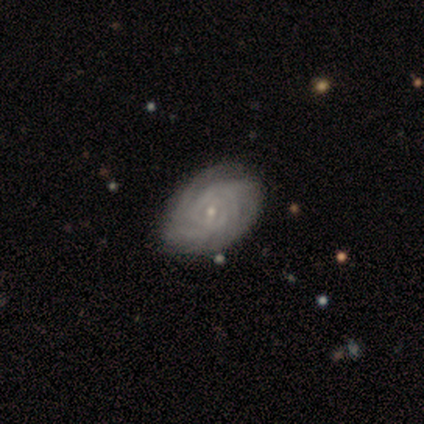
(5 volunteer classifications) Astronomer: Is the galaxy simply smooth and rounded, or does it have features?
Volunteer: featured or disk — 80%.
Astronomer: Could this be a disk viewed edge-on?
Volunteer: no — 100%.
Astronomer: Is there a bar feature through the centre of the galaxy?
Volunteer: weak — 50%, tied with no at 50%.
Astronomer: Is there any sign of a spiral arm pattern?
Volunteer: yes — 100%.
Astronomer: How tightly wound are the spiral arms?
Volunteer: tight — 50%, tied with medium at 50%.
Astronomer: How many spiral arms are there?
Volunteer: can't tell — 50%.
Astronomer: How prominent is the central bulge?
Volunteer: moderate — 50%, tied with small at 50%.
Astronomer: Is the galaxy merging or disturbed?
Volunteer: none — 80%.